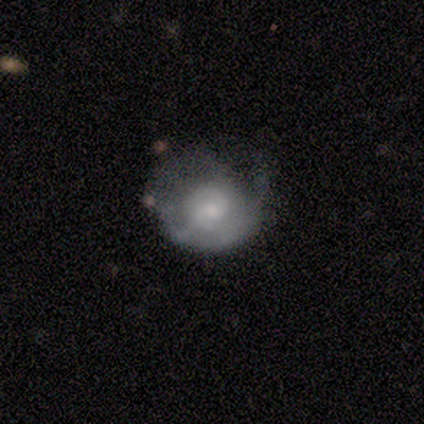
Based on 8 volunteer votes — Volunteers were most divided on "smooth or featured" (2-way tie): smooth: 50%, featured or disk: 50%, star or artifact: 0%. More confident: how rounded — round (100%); merging — major disturbance (62%).